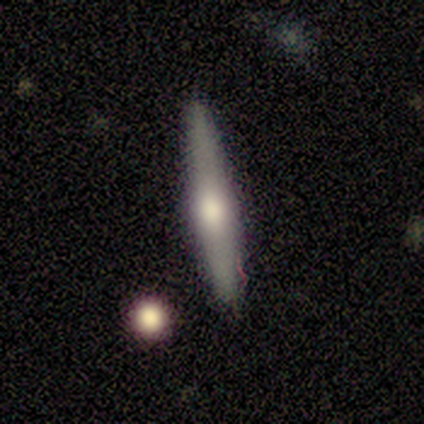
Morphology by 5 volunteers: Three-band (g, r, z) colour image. It shows a smooth galaxy with no disk features (60%) that is cigar-shaped (67%). Merging: none (100%).